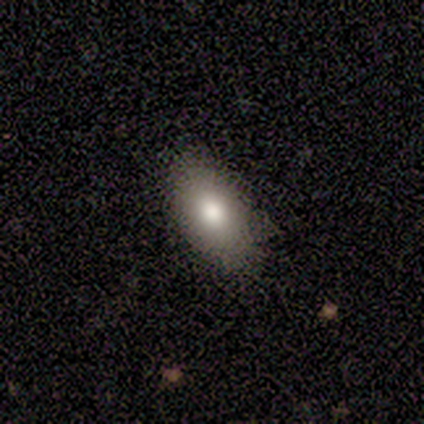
Smooth or featured?
  - smooth: 100% *
  - featured or disk: 0%
  - star or artifact: 0%
How rounded?
  - in between: 80% *
  - round: 20%
  - cigar-shaped: 0%
Merging?
  - none: 60% *
  - minor disturbance: 40%
  - major disturbance: 0%
  - merger: 0%